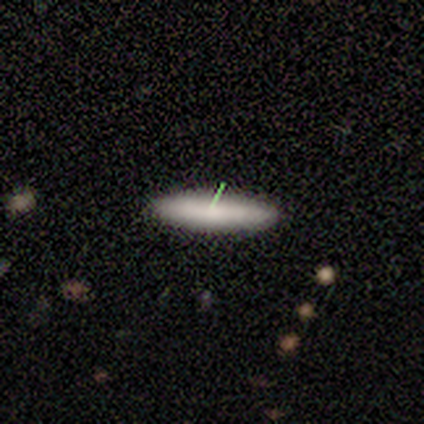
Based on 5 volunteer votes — This is clearly a smooth galaxy (100%). How rounded: clearly cigar-shaped (80%). Merging: clearly none (100%).